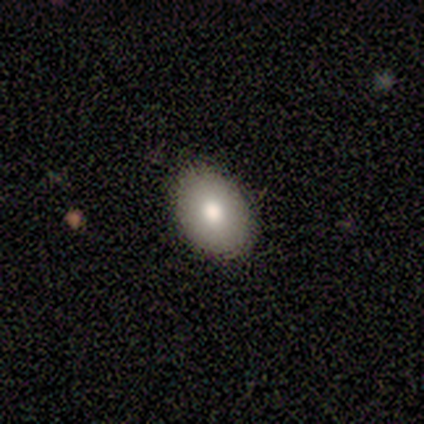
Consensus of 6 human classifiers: Smooth or featured? 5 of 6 (83%) said smooth. How rounded? 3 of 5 (60%) said round. Merging? 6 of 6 (100%) said none.